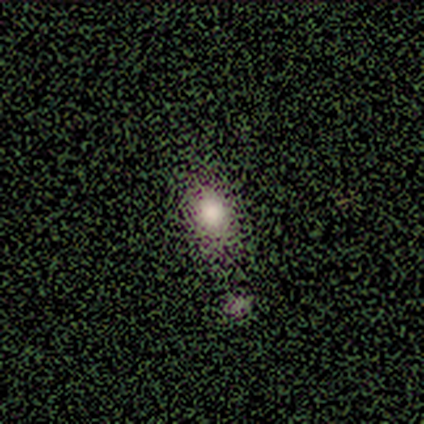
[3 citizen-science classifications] smooth 67%, star or artifact 33%, featured or disk 0%. Down the decision tree: how rounded — in between (100%); merging — none (100%).